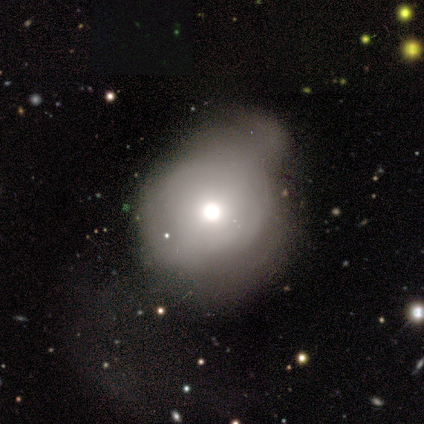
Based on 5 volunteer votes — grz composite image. It shows a smooth galaxy with no disk features (60%) that is in between round and cigar-shaped (67%). Merging: minor disturbance (80%).